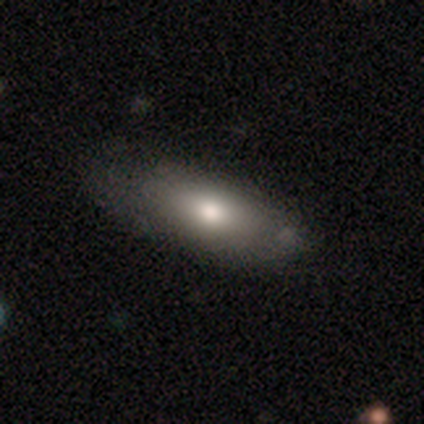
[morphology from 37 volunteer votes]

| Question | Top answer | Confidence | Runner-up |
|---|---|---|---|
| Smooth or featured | smooth | 73% | featured or disk (24%) |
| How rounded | in between | 78% | cigar-shaped (15%) |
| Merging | none | 69% | minor disturbance (22%) |